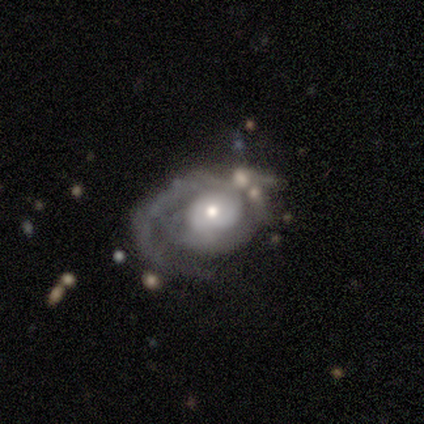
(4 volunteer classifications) Smooth or featured? featured or disk (100%)
Edge-on disk? no (100%)
Bar? no (75%)
Spiral arms? yes (75%)
Spiral winding? tight (67%)
Spiral arm count? 1 (67%)
Bulge size? moderate (50%, tied with small)
Merging? none (75%)